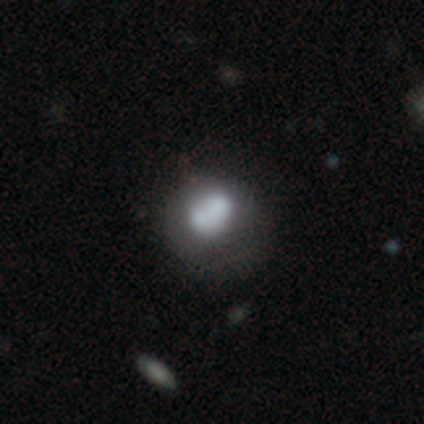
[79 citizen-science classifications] Smooth or featured? 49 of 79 (62%) said smooth. How rounded? 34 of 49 (69%) said round. Merging? 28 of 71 (39%) said merger.